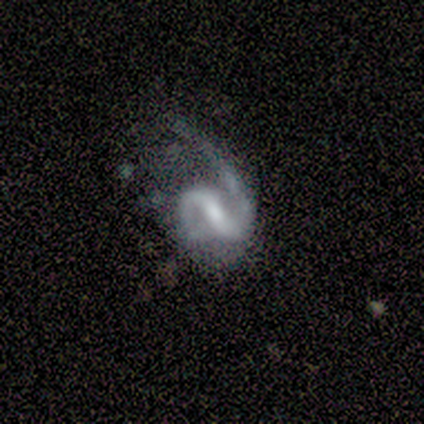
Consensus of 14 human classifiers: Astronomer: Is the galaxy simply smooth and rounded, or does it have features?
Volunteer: featured or disk — 86%.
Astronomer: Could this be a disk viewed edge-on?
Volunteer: no — 100%.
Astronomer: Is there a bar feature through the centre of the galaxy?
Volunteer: strong — 50%, tied with weak at 50%.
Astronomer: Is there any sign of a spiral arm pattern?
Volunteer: yes — 100%.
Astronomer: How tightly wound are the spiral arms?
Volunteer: loose — 50% (runner-up: medium, 42%).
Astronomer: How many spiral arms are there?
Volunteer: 2 — 92%.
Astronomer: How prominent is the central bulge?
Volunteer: small — 50% (runner-up: moderate, 33%).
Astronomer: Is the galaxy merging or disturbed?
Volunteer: major disturbance — 42% (runner-up: none, 33%).